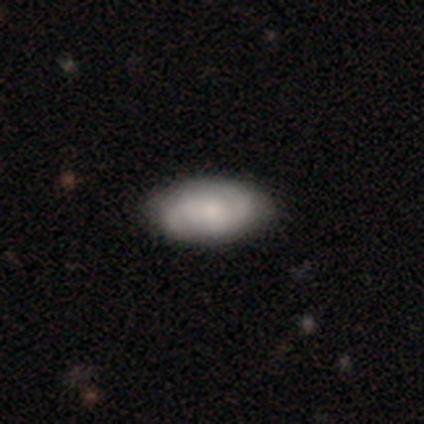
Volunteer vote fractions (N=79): This appears to be a featured or disk galaxy (52%) with no bar (62%), 2 (89%) medium (50%) spiral arms (92%) and a small central bulge (49%). Merging: none (37%).